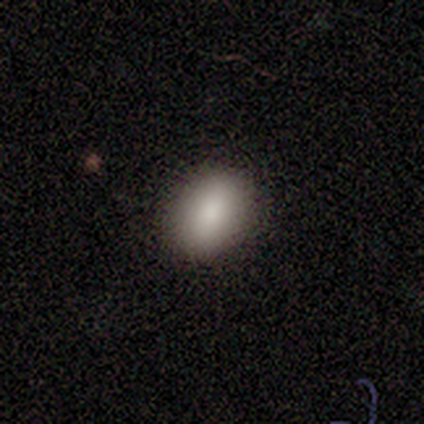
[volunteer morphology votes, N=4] smooth_or_featured: smooth (p=1.00)
how_rounded: in between (p=1.00)
merging: minor disturbance (p=0.75) [alt: none p=0.25]